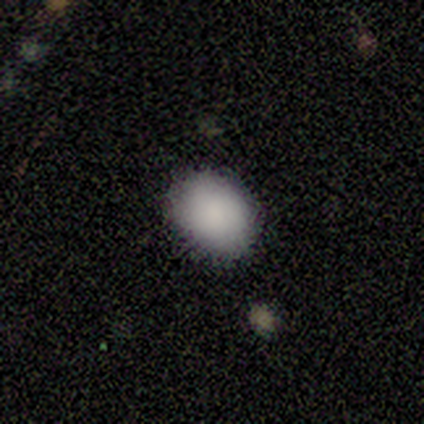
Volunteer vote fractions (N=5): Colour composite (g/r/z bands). It shows a smooth galaxy with no disk features (100%) that is round (100%). Merging: none (100%).